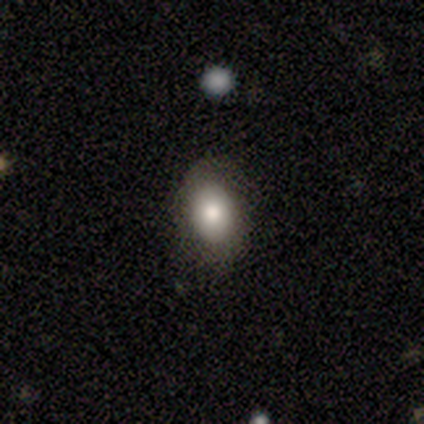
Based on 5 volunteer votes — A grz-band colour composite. It shows a smooth galaxy with no disk features (80%) that is in between round and cigar-shaped (100%). Merging: none (75%).